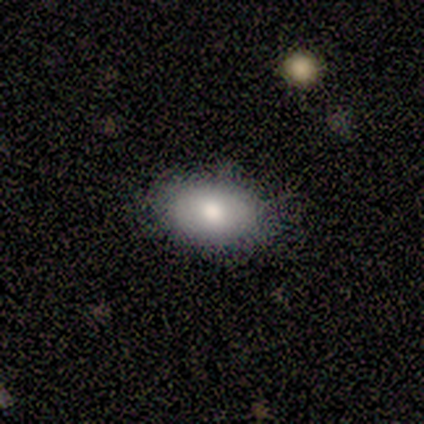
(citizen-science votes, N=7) Overall: smooth (71%). How rounded: in between (80%). Merging: none (100%).